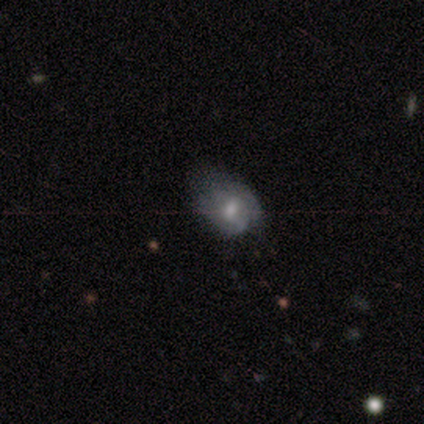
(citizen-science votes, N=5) A smooth galaxy with no disk features (80%) that is round (75%).

Vote fractions:
- Smooth or featured? smooth: 80% / featured or disk: 20% / star or artifact: 0%
- How rounded? round: 75% / in between: 25% / cigar-shaped: 0%
- Merging? major disturbance: 80% / minor disturbance: 20% / none: 0% / merger: 0%